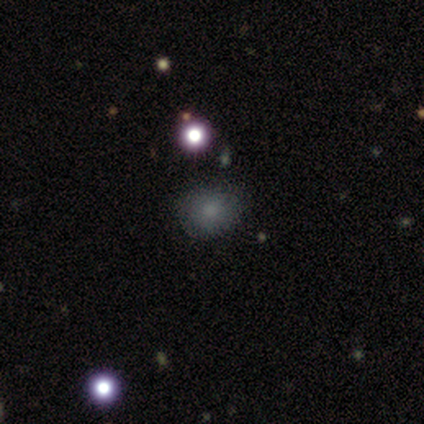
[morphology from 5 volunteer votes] A smooth galaxy with no disk features (80%) that is round (100%).

Vote fractions:
- Smooth or featured? smooth: 80% / featured or disk: 20% / star or artifact: 0%
- How rounded? round: 100% / in between: 0% / cigar-shaped: 0%
- Merging? none: 100% / minor disturbance: 0% / major disturbance: 0% / merger: 0%